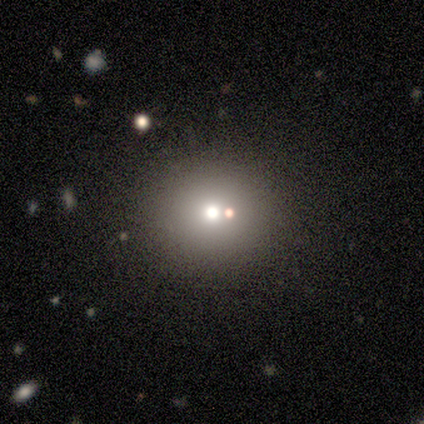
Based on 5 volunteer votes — A smooth galaxy with no disk features (60%) that is round (100%). Merging: none (100%).